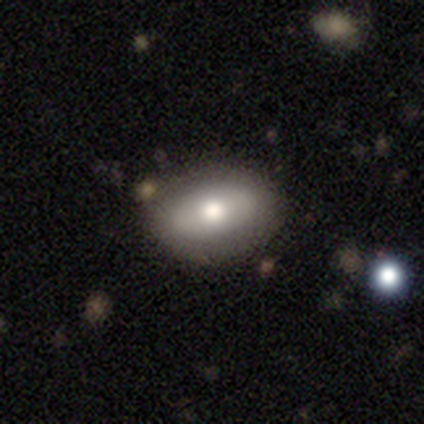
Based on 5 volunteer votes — Morphology: type=smooth (60%); roundness=in between (100%); merging=none (100%).